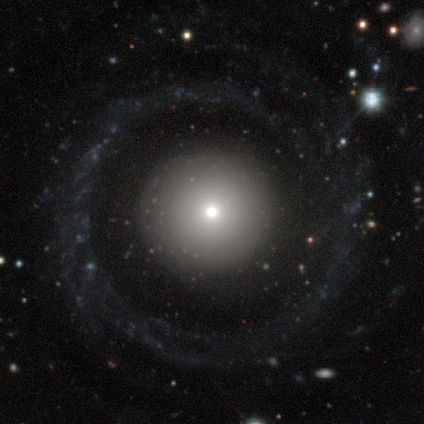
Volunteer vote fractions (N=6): featured or disk 67%, smooth 33%, star or artifact 0%. Down the decision tree: edge-on disk — no (100%); bar — no (75%); spiral arms — yes (50%, tied with no); spiral arm count — 2 (50%, tied with 3); spiral winding — loose (100%); bulge size — small (75%); merging — none (83%).